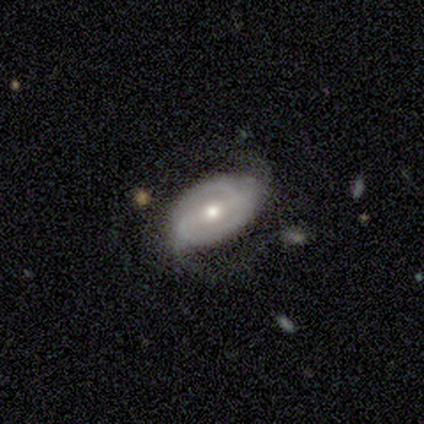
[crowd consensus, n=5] smooth_or_featured: featured or disk (p=0.80) [alt: smooth p=0.20]
disk_edge_on: no (p=1.00)
bar: weak (p=0.75) [alt: no p=0.25]
has_spiral_arms: yes (p=0.75) [alt: no p=0.25]
spiral_winding: medium (p=1.00)
spiral_arm_count: 2 (p=0.67) [alt: 3 p=0.33]
bulge_size: moderate (p=1.00)
merging: none (p=0.80) [alt: merger p=0.20]